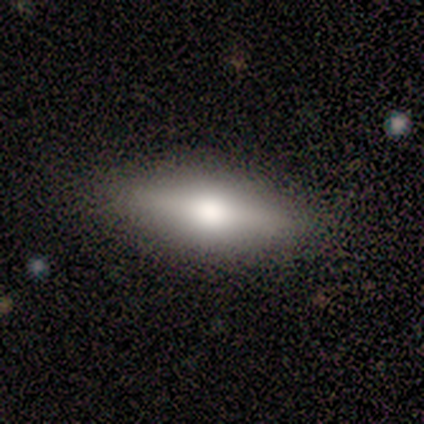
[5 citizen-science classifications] smooth_or_featured: featured or disk (p=0.60) [alt: smooth p=0.40]
disk_edge_on: yes (p=1.00)
edge_on_bulge: rounded (p=0.67) [alt: boxy p=0.33]
merging: none (p=1.00)